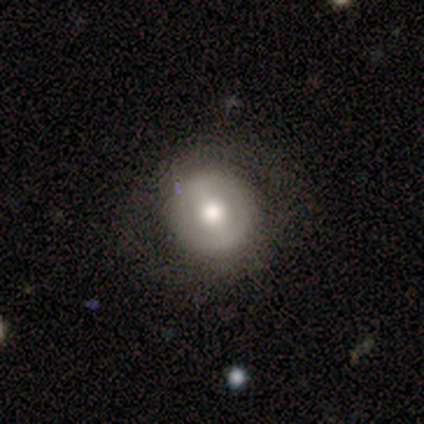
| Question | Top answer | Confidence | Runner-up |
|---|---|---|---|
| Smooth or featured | featured or disk | 88% | smooth (12%) |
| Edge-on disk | no | 100% | — |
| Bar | strong | 71% | weak (14%) |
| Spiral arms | yes | 57% | no (43%) |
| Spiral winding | tight | 50% | medium (25%) |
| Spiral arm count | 2 | 75% | can't tell (25%) |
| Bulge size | moderate | 86% | large (14%) |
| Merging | none | 100% | — |